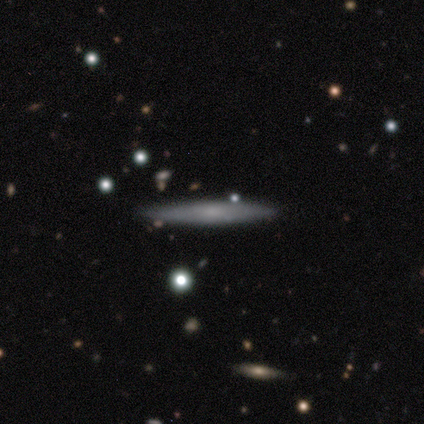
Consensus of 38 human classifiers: featured or disk 55%, smooth 39%, star or artifact 5%. Down the decision tree: edge-on disk — yes (95%); edge-on bulge — none (70%); merging — none (97%).